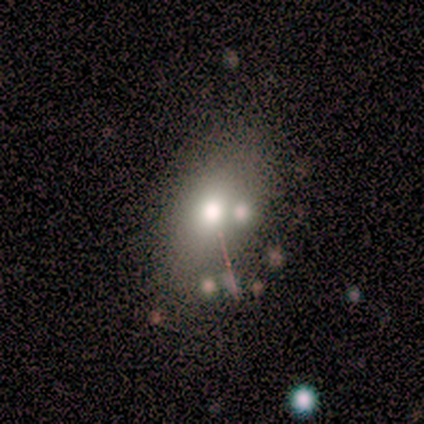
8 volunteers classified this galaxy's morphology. smooth 62%, featured or disk 25%, star or artifact 12%. Down the decision tree: how rounded — in between (60%); merging — merger (57%).